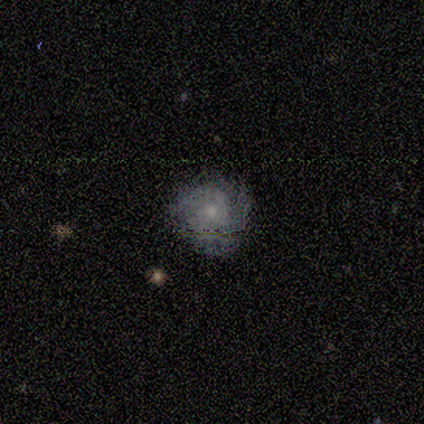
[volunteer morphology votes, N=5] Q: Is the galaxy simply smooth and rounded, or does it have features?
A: featured or disk — 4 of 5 (80%).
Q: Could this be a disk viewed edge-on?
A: no — 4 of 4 (100%).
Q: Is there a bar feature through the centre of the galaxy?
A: weak — 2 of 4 (50%, tied with no).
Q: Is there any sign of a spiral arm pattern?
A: yes — 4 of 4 (100%).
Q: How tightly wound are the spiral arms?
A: tight — 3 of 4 (75%).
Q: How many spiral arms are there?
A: can't tell — 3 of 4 (75%).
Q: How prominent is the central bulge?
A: small — 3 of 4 (75%).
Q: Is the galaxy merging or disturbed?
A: none — 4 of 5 (80%).